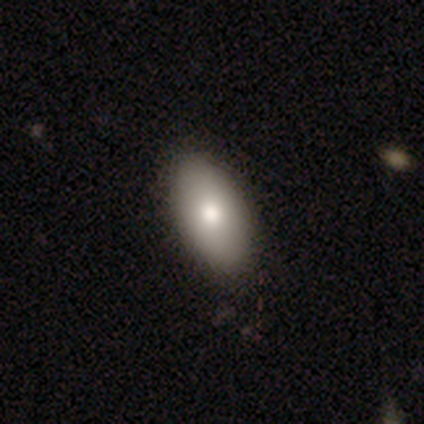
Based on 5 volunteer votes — Morphology: type=smooth (80%); roundness=in between (100%); merging=none (100%).